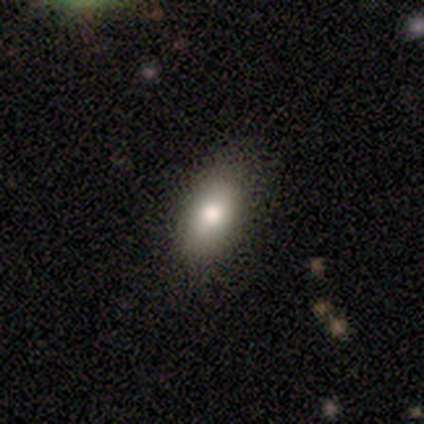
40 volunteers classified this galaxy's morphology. This is clearly a smooth galaxy (80%). How rounded: clearly in between (94%). Merging: clearly none (86%).